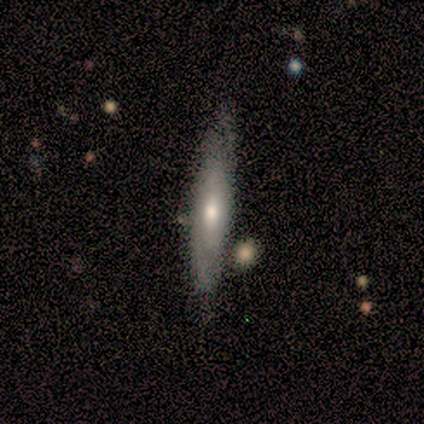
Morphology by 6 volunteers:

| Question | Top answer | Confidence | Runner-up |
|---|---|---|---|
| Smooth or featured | featured or disk | 83% | smooth (17%) |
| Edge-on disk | no | 60% | yes (40%) |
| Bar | no | 100% | — |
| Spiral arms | no | 67% | yes (33%) |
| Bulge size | small | 67% | moderate (33%) |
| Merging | minor disturbance | 67% | none (33%) |